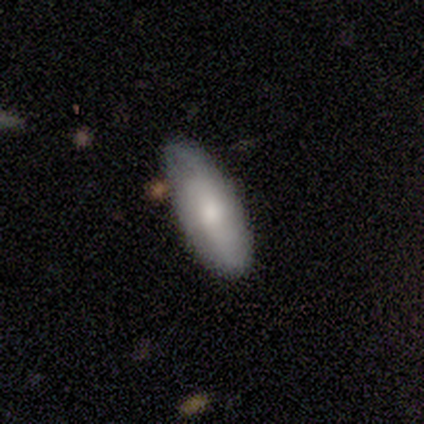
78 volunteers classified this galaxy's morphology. smooth 56%, featured or disk 38%, star or artifact 5%. Down the decision tree: how rounded — in between (84%); merging — none (36%).